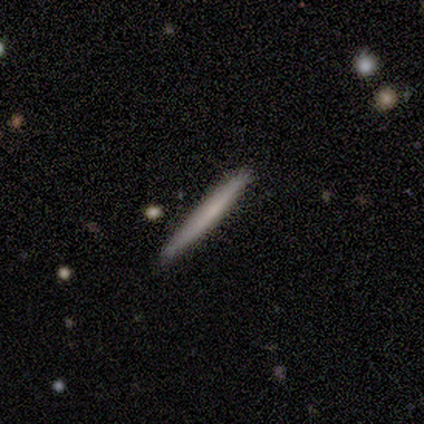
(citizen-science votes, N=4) Smooth or featured?
  - smooth: 100% *
  - featured or disk: 0%
  - star or artifact: 0%
How rounded?
  - cigar-shaped: 100% *
  - round: 0%
  - in between: 0%
Merging?
  - none: 100% *
  - minor disturbance: 0%
  - major disturbance: 0%
  - merger: 0%